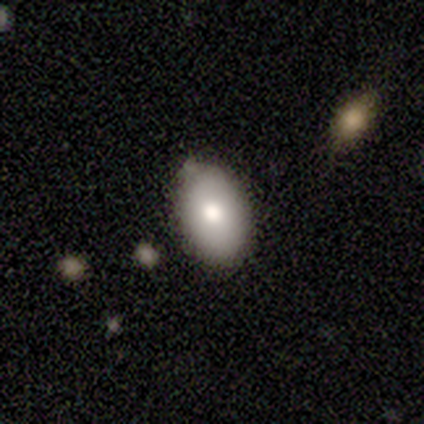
This is clearly a smooth galaxy (100%). How rounded: clearly in between (100%). Merging: clearly none (100%).